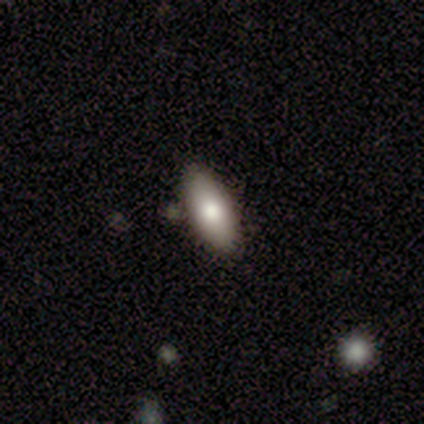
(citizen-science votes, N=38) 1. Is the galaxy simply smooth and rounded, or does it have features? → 79% smooth, 21% featured or disk, 0% star or artifact.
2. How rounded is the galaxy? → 80% in between, 20% cigar-shaped, 0% round.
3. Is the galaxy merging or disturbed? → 87% none, 8% minor disturbance, 5% major disturbance, 0% merger.